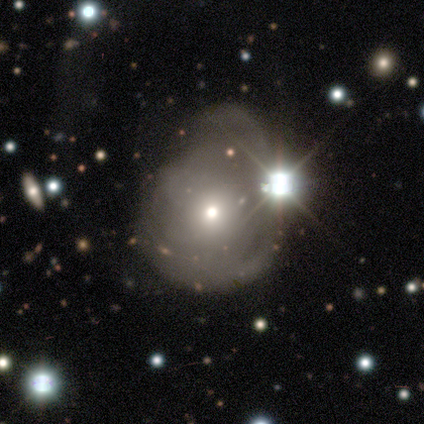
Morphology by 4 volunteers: smooth-or-featured: smooth: 50% (tied) | featured or disk: 50% (tied) | star or artifact: 0%
  how-rounded: round: 100% | in between: 0% | cigar-shaped: 0%
  merging: major disturbance: 50% | none: 25% | merger: 25% | minor disturbance: 0%